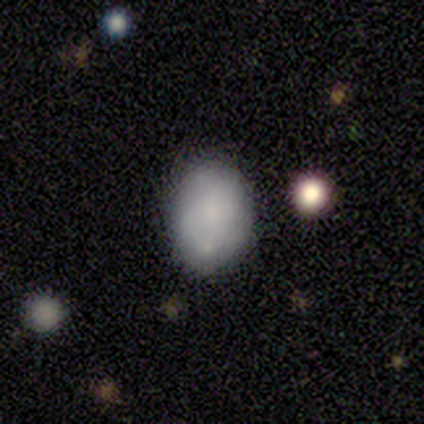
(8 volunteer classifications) A smooth galaxy with no disk features (88%) that is in between round and cigar-shaped (86%).

Vote fractions:
- Smooth or featured? smooth: 88% / featured or disk: 12% / star or artifact: 0%
- How rounded? in between: 86% / round: 14% / cigar-shaped: 0%
- Merging? none: 62% / merger: 38% / minor disturbance: 0% / major disturbance: 0%